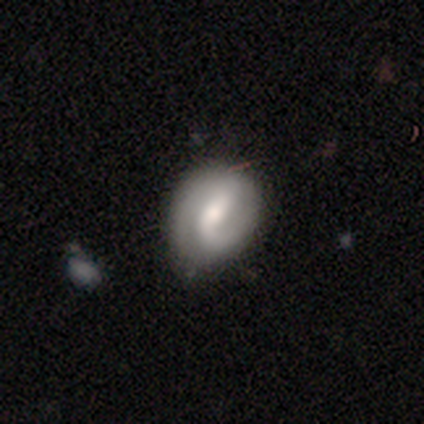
A smooth galaxy with no disk features (60%) that is in between round and cigar-shaped (67%).

Vote fractions:
- Smooth or featured? smooth: 60% / featured or disk: 40% / star or artifact: 0%
- How rounded? in between: 67% / round: 33% / cigar-shaped: 0%
- Merging? none: 60% / minor disturbance: 40% / major disturbance: 0% / merger: 0%